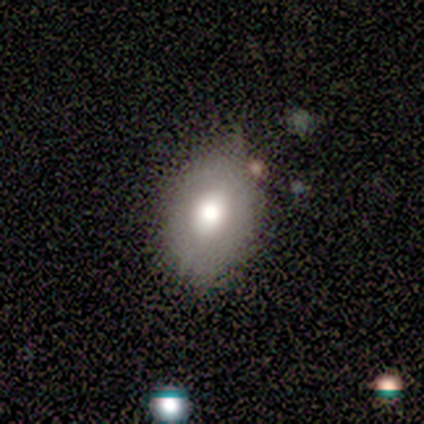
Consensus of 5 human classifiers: A smooth galaxy with no disk features (80%) that is in between round and cigar-shaped (100%).

Vote fractions:
- Smooth or featured? smooth: 80% / featured or disk: 20% / star or artifact: 0%
- How rounded? in between: 100% / round: 0% / cigar-shaped: 0%
- Merging? minor disturbance: 60% / none: 40% / major disturbance: 0% / merger: 0%